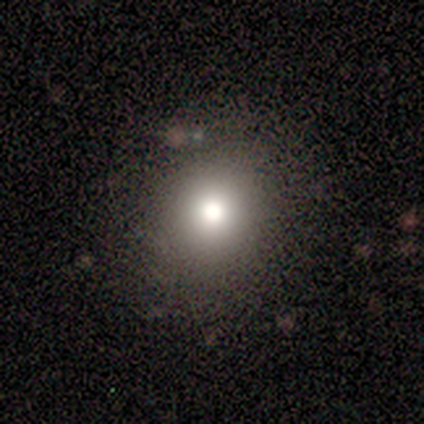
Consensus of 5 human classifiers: Volunteers were most divided on "how rounded": round: 67%, in between: 33%, cigar-shaped: 0%. More confident: merging — none (100%); smooth or featured — smooth (60%).